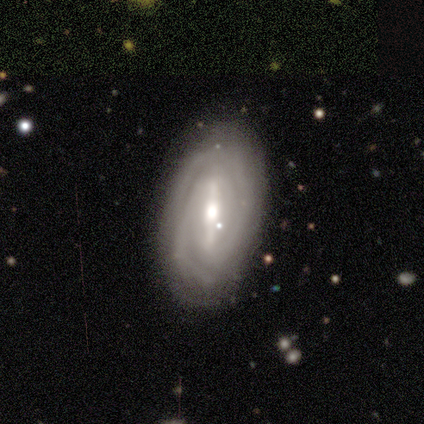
smooth-or-featured: featured or disk: 79% | smooth: 14% | star or artifact: 7%
  disk-edge-on: no: 97% | yes: 3%
    bar: strong: 91% | weak: 6% | no: 3%
    has-spiral-arms: yes: 94% | no: 6%
      spiral-winding: tight: 60% | medium: 33% | loose: 7%
      spiral-arm-count: 2: 47% | can't tell: 27% | 3: 20% | 4: 3% | more than 4: 3% | 1: 0%
    bulge-size: moderate: 72% | large: 16% | small: 9% | dominant: 3% | none: 0%
  merging: none: 74% | minor disturbance: 18% | major disturbance: 5% | merger: 3%